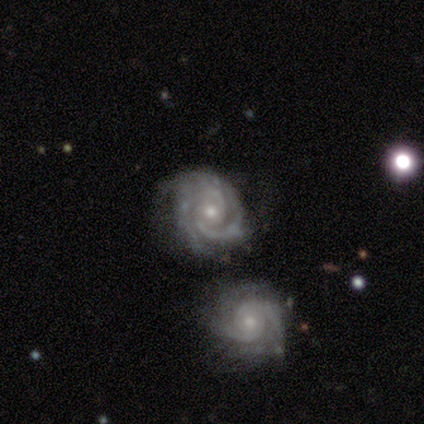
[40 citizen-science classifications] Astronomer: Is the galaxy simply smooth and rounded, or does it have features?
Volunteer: featured or disk — 100%.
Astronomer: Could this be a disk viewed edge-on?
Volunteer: no — 100%.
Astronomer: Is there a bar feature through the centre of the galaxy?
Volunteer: no — 68%.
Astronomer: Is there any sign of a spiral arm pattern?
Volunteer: yes — 98%.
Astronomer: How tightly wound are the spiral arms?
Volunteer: tight — 87%.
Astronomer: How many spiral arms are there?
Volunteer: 2 — 56%.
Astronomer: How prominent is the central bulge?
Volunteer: moderate — 55% (runner-up: small, 40%).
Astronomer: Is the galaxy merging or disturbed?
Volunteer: none — 60%.